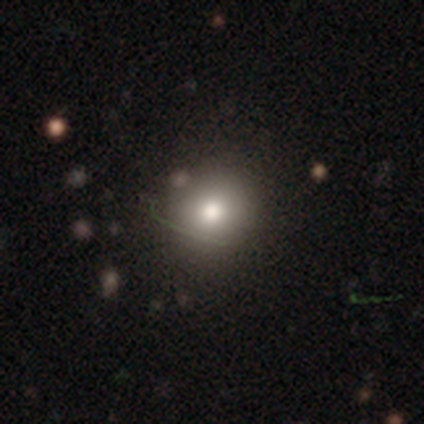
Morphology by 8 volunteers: Q: Smooth or featured?
A: smooth (62%); runner-up: featured or disk (25%)
Q: How rounded?
A: round (80%); runner-up: in between (20%)
Q: Merging?
A: none (57%); runner-up: minor disturbance (14%)